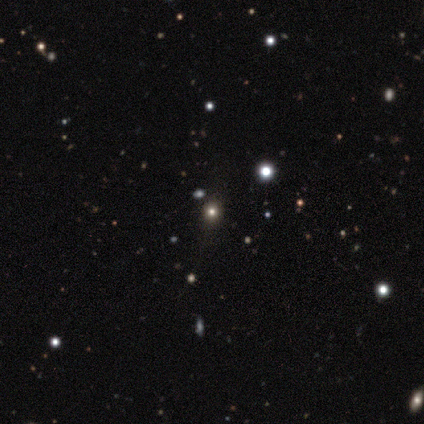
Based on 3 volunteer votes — Smooth or featured?
  - smooth: 33% * (tied)
  - featured or disk: 33% * (tied)
  - star or artifact: 33% * (tied)
How rounded?
  - round: 100% *
  - in between: 0%
  - cigar-shaped: 0%
Merging?
  - none: 50% * (tied)
  - merger: 50% * (tied)
  - minor disturbance: 0%
  - major disturbance: 0%